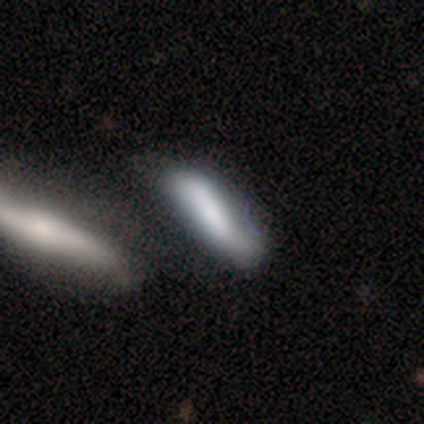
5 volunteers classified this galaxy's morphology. This appears to be a smooth galaxy with no disk features (80%) that is cigar-shaped (100%). Merging: none (80%).